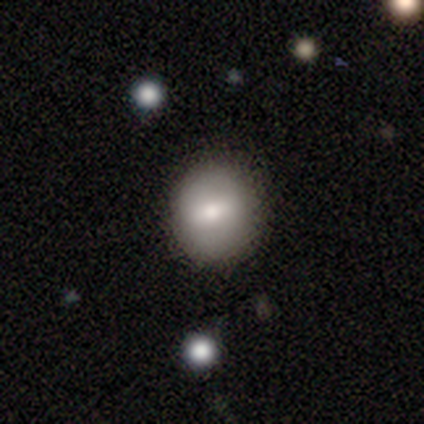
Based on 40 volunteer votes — Smooth or featured? 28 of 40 (70%) said smooth. How rounded? 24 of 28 (86%) said round. Merging? 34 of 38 (89%) said none.